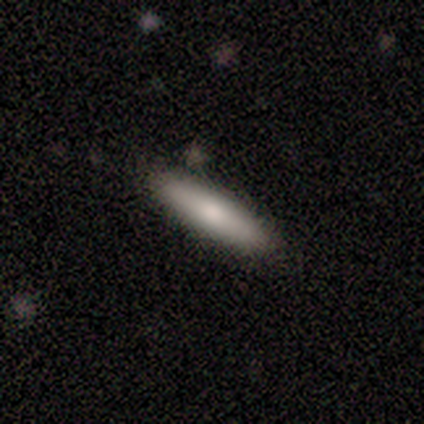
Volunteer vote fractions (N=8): smooth 62%, featured or disk 38%, star or artifact 0%. Down the decision tree: how rounded — in between (60%); merging — none (88%).